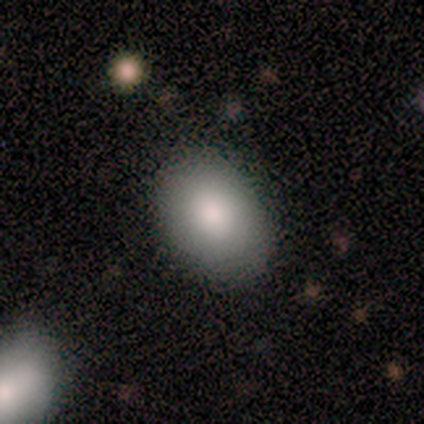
Overall: smooth (40%, tied with star or artifact). How rounded: round (50%, tied with in between). Merging: none (100%).